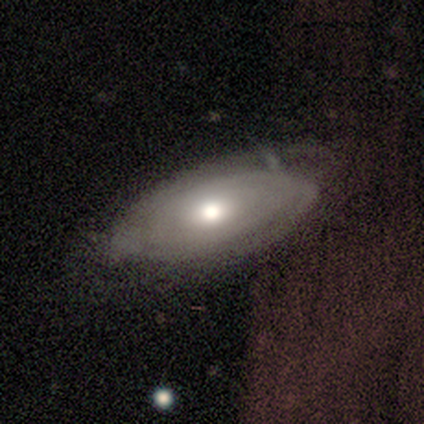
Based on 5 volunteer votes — smooth-or-featured: featured or disk: 80% | smooth: 20% | star or artifact: 0%
  disk-edge-on: no: 100% | yes: 0%
    bar: no: 75% | weak: 25% | strong: 0%
    has-spiral-arms: yes: 75% | no: 25%
      spiral-winding: tight: 100% | medium: 0% | loose: 0%
      spiral-arm-count: 2: 67% | 3: 33% | 1: 0% | 4: 0% | more than 4: 0% | can't tell: 0%
    bulge-size: moderate: 75% | large: 25% | dominant: 0% | small: 0% | none: 0%
  merging: minor disturbance: 80% | major disturbance: 20% | none: 0% | merger: 0%